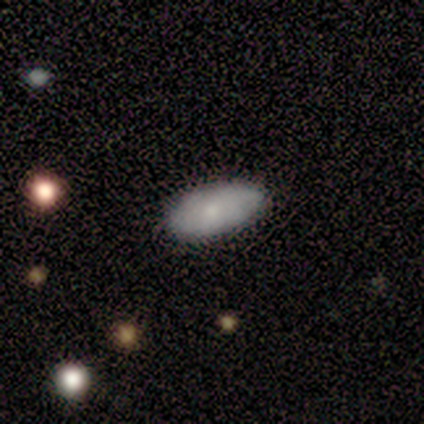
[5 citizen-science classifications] Smooth or featured?
  - smooth: 60% *
  - featured or disk: 40%
  - star or artifact: 0%
How rounded?
  - in between: 100% *
  - round: 0%
  - cigar-shaped: 0%
Merging?
  - none: 100% *
  - minor disturbance: 0%
  - major disturbance: 0%
  - merger: 0%